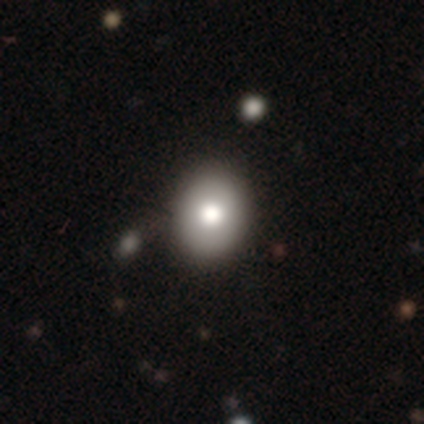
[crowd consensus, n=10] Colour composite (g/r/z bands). It shows a smooth galaxy with no disk features (90%) that is in between round and cigar-shaped (67%). Merging: none (80%).